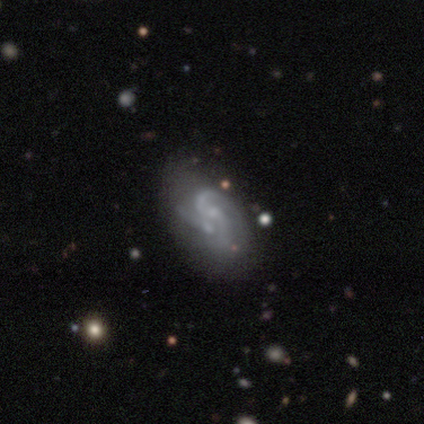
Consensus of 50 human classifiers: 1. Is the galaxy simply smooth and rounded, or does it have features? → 84% featured or disk, 8% smooth, 8% star or artifact.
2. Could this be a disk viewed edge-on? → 98% no, 2% yes.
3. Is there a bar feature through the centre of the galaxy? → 68% no, 29% weak, 2% strong.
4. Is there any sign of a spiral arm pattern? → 90% yes, 10% no.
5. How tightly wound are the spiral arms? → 54% medium, 24% tight, 22% loose.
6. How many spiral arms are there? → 43% 2, 38% 3, 8% can't tell, 5% 1, 3% 4, 3% more than 4.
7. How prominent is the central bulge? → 56% small, 29% none, 15% moderate, 0% dominant, 0% large.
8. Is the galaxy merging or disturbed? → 39% none, 30% merger, 22% minor disturbance, 9% major disturbance.